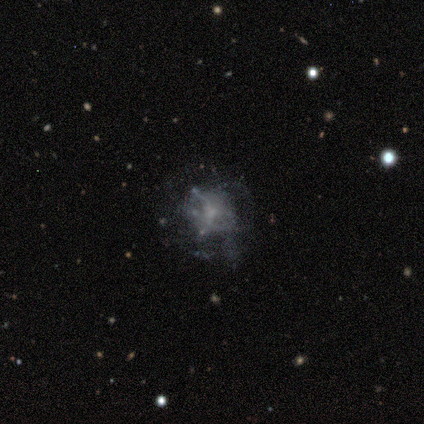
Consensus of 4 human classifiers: featured or disk 75%, star or artifact 25%, smooth 0%. Down the decision tree: edge-on disk — no (100%); bar — no (100%); spiral arms — no (100%); bulge size — none (67%); merging — none (100%).